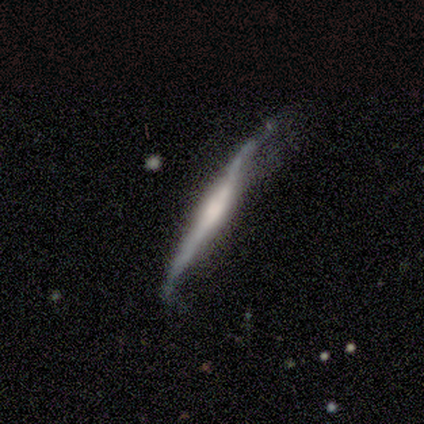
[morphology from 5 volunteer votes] smooth 60%, featured or disk 40%, star or artifact 0%. Down the decision tree: how rounded — cigar-shaped (67%); merging — none (40%).